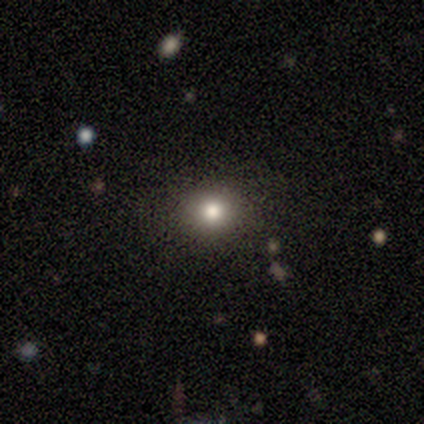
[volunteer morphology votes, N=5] Q: Smooth or featured?
A: smooth (100%)
Q: How rounded?
A: round (100%)
Q: Merging?
A: none (80%); runner-up: minor disturbance (20%)